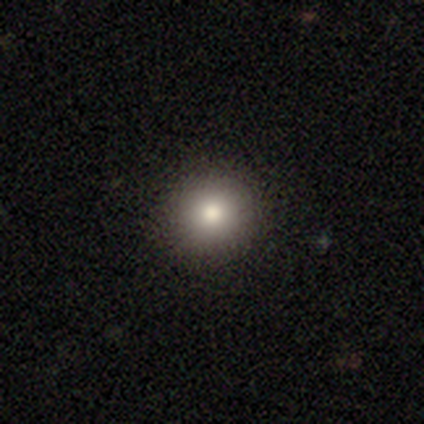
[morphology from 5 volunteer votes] This is likely a smooth galaxy (60%). How rounded: clearly round (100%). Merging: clearly none (100%).